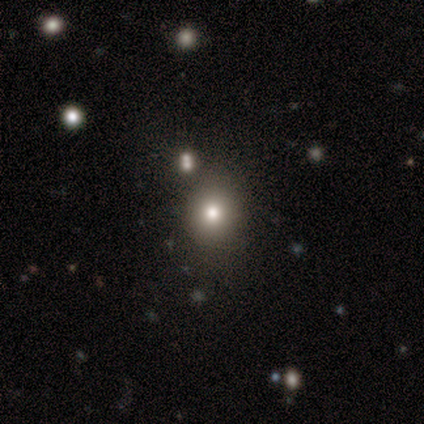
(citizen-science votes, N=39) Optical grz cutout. It shows a smooth galaxy with no disk features (59%) that is round (78%). Merging: none (80%).